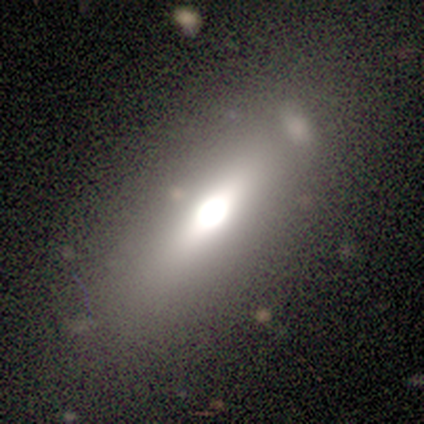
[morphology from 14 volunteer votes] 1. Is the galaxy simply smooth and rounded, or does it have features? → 64% smooth, 36% featured or disk, 0% star or artifact.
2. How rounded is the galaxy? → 56% cigar-shaped, 44% in between, 0% round.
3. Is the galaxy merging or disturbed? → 79% none, 14% minor disturbance, 7% merger, 0% major disturbance.